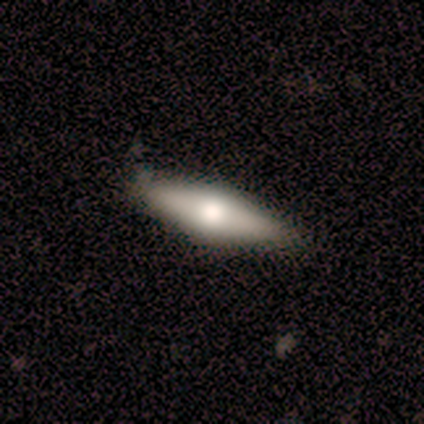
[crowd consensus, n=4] Smooth or featured? smooth (50%, tied with featured or disk)
How rounded? in between (50%, tied with cigar-shaped)
Merging? none (100%)